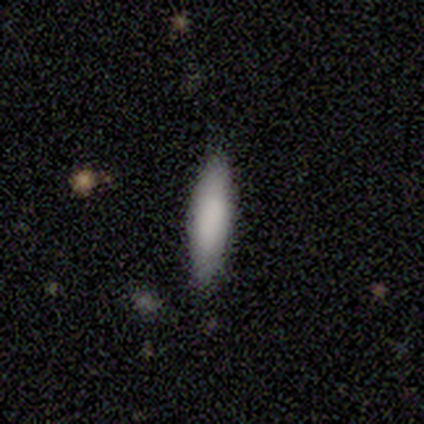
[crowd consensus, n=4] Overall: smooth (75%). How rounded: in between (67%; cigar-shaped 33%). Merging: none (100%).